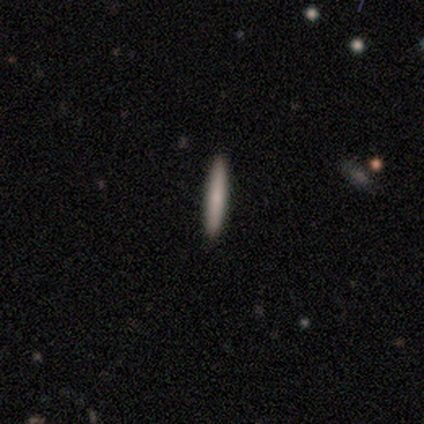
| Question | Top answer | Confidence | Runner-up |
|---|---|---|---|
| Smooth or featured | smooth | 50% | featured or disk (25%) |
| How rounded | in between | 50% | tied: cigar-shaped (50%) |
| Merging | none | 67% | minor disturbance (33%) |